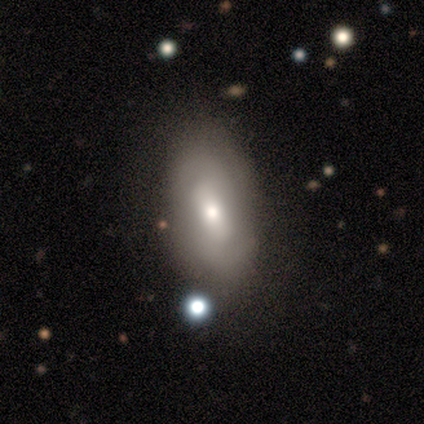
Smooth or featured? 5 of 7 (71%) said featured or disk. Edge-on disk? 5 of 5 (100%) said no. Bar? 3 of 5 (60%) said weak. Spiral arms? 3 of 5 (60%) said yes. Spiral winding? 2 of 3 (67%) said tight. Spiral arm count? 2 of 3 (67%) said 2. Bulge size? 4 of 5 (80%) said moderate. Merging? 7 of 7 (100%) said none.